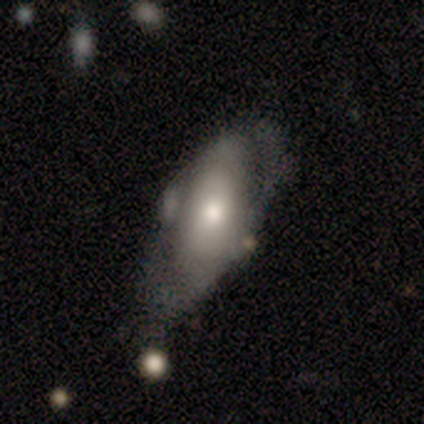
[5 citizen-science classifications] Smooth or featured? 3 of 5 (60%) said featured or disk. Edge-on disk? 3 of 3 (100%) said no. Bar? 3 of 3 (100%) said no. Spiral arms? 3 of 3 (100%) said yes. Spiral winding? 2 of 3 (67%) said medium. Spiral arm count? 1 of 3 (33%, tied with 3 and can't tell) said 1. Bulge size? 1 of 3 (33%, tied with moderate and small) said large. Merging? 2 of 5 (40%, tied with major disturbance) said minor disturbance.